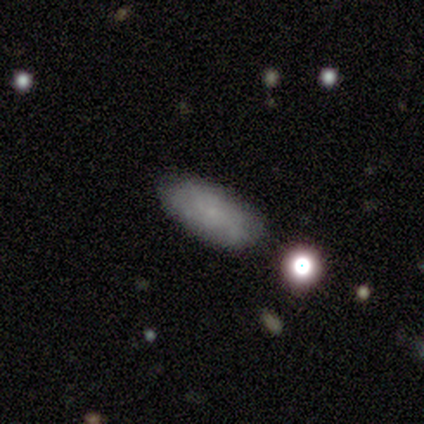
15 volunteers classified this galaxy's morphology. A smooth galaxy with no disk features (67%) that is in between round and cigar-shaped (100%).

Vote fractions:
- Smooth or featured? smooth: 67% / featured or disk: 33% / star or artifact: 0%
- How rounded? in between: 100% / round: 0% / cigar-shaped: 0%
- Merging? none: 93% / minor disturbance: 7% / major disturbance: 0% / merger: 0%